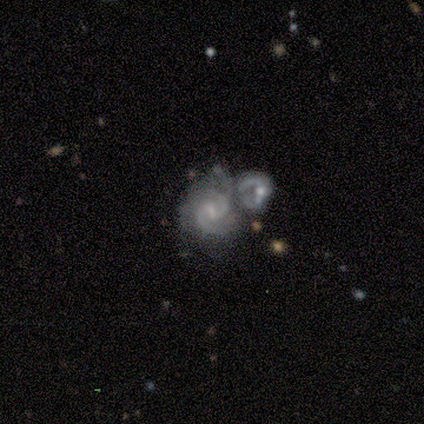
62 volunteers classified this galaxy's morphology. Smooth or featured? 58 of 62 (94%) said featured or disk. Edge-on disk? 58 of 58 (100%) said no. Bar? 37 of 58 (64%) said weak. Spiral arms? 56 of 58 (97%) said yes. Spiral winding? 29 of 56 (52%) said medium. Spiral arm count? 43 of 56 (77%) said 2. Bulge size? 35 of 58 (60%) said small. Merging? 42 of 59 (71%) said merger.